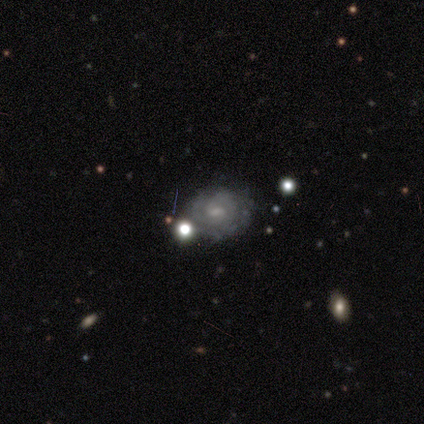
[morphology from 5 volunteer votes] smooth_or_featured: featured or disk (p=0.80) [alt: smooth p=0.20]
disk_edge_on: no (p=1.00)
bar: weak (p=0.50) [alt: strong p=0.25]
has_spiral_arms: yes (p=0.50) [tied with: no p=0.50]
spiral_winding: tight (p=0.50) [tied with: medium p=0.50]
spiral_arm_count: 2 (p=0.50) [tied with: can't tell p=0.50]
bulge_size: moderate (p=0.75) [alt: small p=0.25]
merging: none (p=0.80) [alt: major disturbance p=0.20]